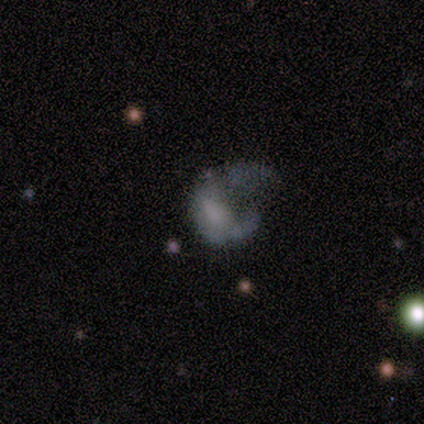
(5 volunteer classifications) smooth-or-featured: featured or disk: 60% | smooth: 40% | star or artifact: 0%
  disk-edge-on: no: 100% | yes: 0%
    bar: no: 100% | strong: 0% | weak: 0%
    has-spiral-arms: no: 100% | yes: 0%
    bulge-size: dominant: 33% (tied) | moderate: 33% (tied) | none: 33% (tied) | large: 0% | small: 0%
  merging: major disturbance: 80% | merger: 20% | none: 0% | minor disturbance: 0%